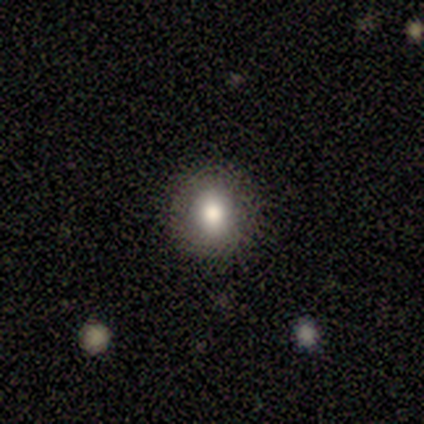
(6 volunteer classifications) Q: Smooth or featured?
A: smooth (83%); runner-up: featured or disk (17%)
Q: How rounded?
A: in between (60%); runner-up: round (40%)
Q: Merging?
A: none (83%); runner-up: minor disturbance (17%)